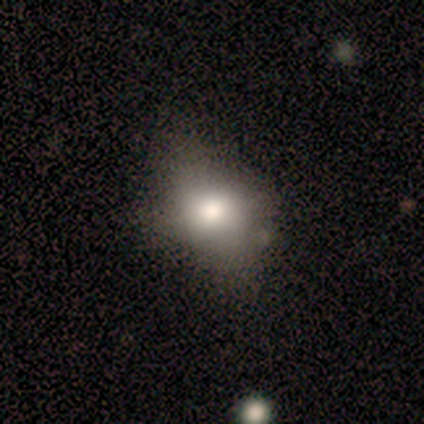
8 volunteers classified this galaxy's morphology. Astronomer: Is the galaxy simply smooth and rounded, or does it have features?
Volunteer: smooth — 88%.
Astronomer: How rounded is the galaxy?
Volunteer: round — 71%.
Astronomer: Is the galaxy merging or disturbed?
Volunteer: none — 71%.